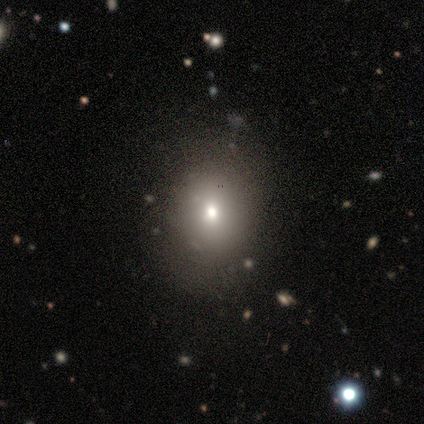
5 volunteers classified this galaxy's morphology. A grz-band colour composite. It shows a smooth galaxy with no disk features (80%) that is round (50%, tied with in between). Merging: none (80%).